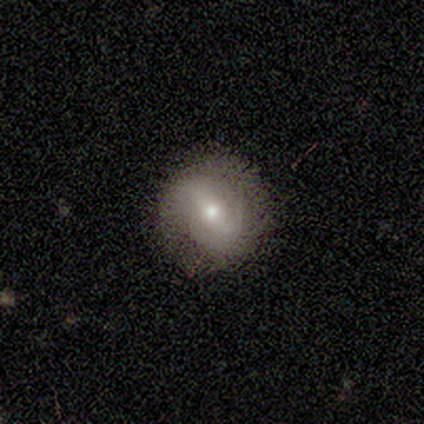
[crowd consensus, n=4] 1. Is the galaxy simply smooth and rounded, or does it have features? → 75% featured or disk, 25% smooth, 0% star or artifact.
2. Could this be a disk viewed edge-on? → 100% no, 0% yes.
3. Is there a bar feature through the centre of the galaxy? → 67% weak, 33% strong, 0% no.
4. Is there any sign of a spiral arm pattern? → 67% yes, 33% no.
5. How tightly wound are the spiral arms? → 50% tight (tied), 50% loose (tied), 0% medium.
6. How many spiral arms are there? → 50% 2 (tied), 50% can't tell (tied), 0% 1, 0% 3, 0% 4, 0% more than 4.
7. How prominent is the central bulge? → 100% small, 0% dominant, 0% large, 0% moderate, 0% none.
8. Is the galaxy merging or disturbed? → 75% none, 25% minor disturbance, 0% major disturbance, 0% merger.